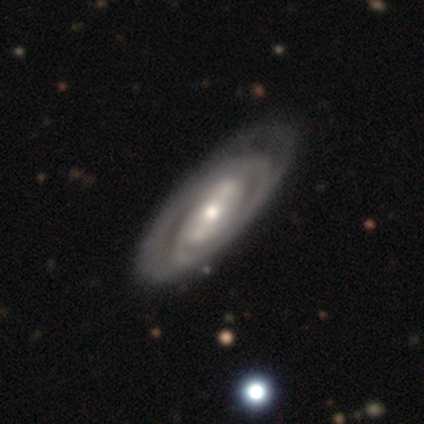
This is clearly a featured or disk galaxy (87%). It is clearly not viewed edge-on (93%). Bar: marginally strong (42%). Spiral arm pattern: clearly yes (91%). Spiral arm count: possibly can't tell (49%). Spiral winding: possibly tight (56%). Central bulge: possibly moderate (49%). Merging: likely none (67%).